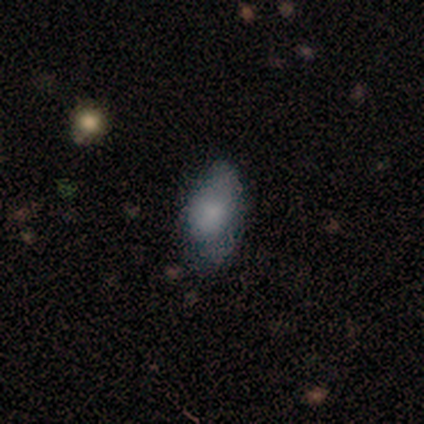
smooth 78%, featured or disk 15%, star or artifact 7%. Down the decision tree: how rounded — in between (88%); merging — none (55%).